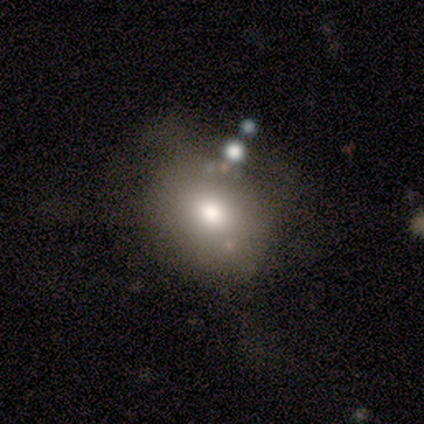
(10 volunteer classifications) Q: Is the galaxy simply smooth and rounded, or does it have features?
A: smooth — 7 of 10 (70%).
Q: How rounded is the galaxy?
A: in between — 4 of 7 (57%).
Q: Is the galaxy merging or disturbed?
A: none — 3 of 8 (38%, tied with minor disturbance).